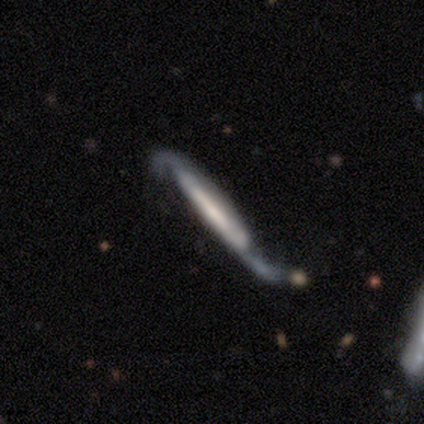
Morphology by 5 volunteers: A featured or disk galaxy (100%) with a strong bar (33%, tied with weak and no), 2 (100%) medium (50%, tied with loose) spiral arms (67%) and a small central bulge (67%).

Vote fractions:
- Smooth or featured? featured or disk: 100% / smooth: 0% / star or artifact: 0%
- Edge-on disk? no: 60% / yes: 40%
- Bar? strong: 33% (tied) / weak: 33% (tied) / no: 33% (tied)
- Spiral arms? yes: 67% / no: 33%
- Spiral winding? medium: 50% (tied) / loose: 50% (tied) / tight: 0%
- Spiral arm count? 2: 100% / 1: 0% / 3: 0% / 4: 0% / more than 4: 0% / can't tell: 0%
- Bulge size? small: 67% / large: 33% / dominant: 0% / moderate: 0% / none: 0%
- Merging? none: 100% / minor disturbance: 0% / major disturbance: 0% / merger: 0%